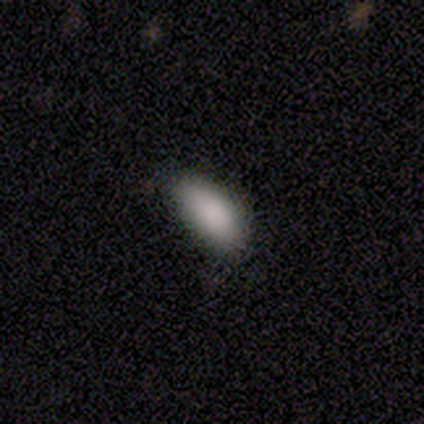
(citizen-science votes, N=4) Smooth or featured? 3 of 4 (75%) said smooth. How rounded? 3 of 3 (100%) said in between. Merging? 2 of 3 (67%) said none.